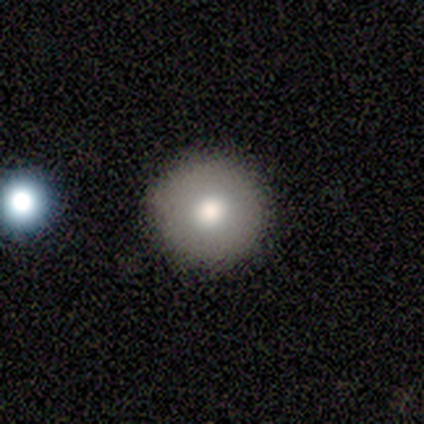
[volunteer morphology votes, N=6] Overall: featured or disk (67%; smooth 33%). Edge-on disk: yes (50%, tied with no). Edge-on bulge: rounded (100%). Merging: none (100%).